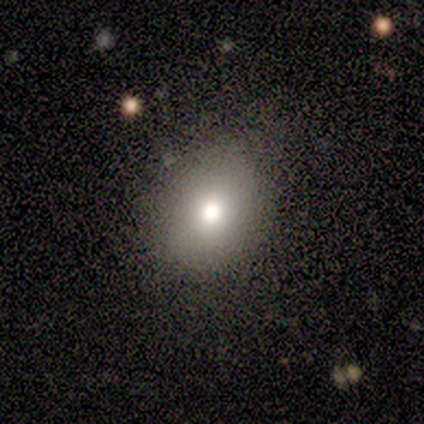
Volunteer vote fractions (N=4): Smooth or featured? 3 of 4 (75%) said smooth. How rounded? 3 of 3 (100%) said round. Merging? 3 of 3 (100%) said none.